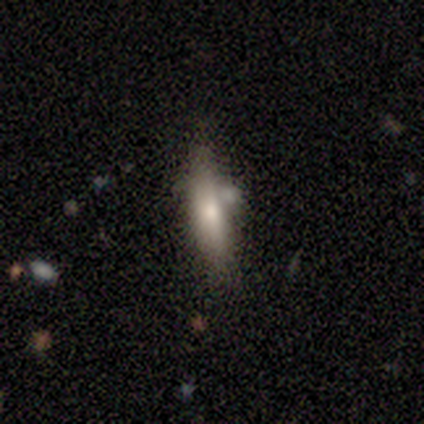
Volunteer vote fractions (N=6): Overall: featured or disk (67%; smooth 33%). Edge-on disk: yes (75%). Edge-on bulge: rounded (67%; none 33%). Merging: none (50%; merger 33%).